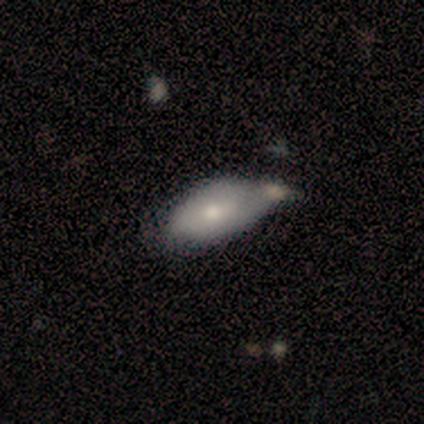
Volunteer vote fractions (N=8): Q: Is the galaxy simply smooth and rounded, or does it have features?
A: smooth — 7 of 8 (88%).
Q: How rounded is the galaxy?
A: in between — 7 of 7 (100%).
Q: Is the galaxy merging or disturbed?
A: merger — 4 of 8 (50%).